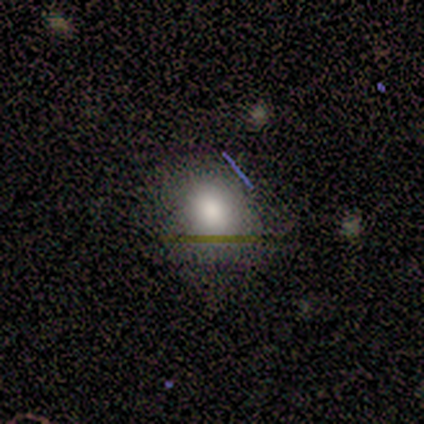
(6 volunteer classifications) Q: Smooth or featured?
A: smooth (67%); runner-up: featured or disk (33%)
Q: How rounded?
A: round (75%); runner-up: in between (25%)
Q: Merging?
A: none (100%)